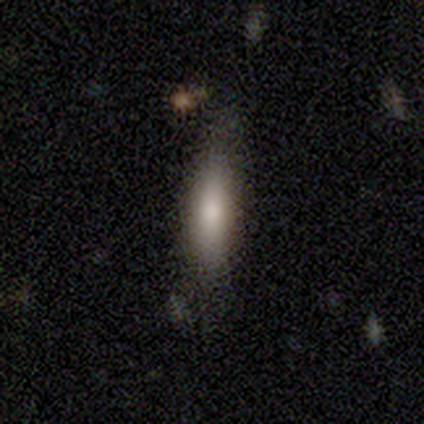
Overall: smooth (50%, tied with featured or disk). How rounded: cigar-shaped (100%). Merging: minor disturbance (50%; none 25%).